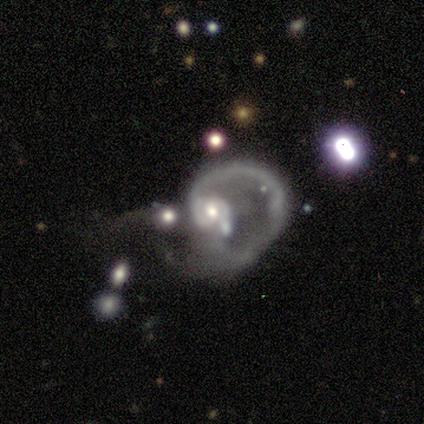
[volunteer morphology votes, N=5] Q: Smooth or featured?
A: featured or disk (100%)
Q: Edge-on disk?
A: no (100%)
Q: Bar?
A: weak (40%); tied with: no (40%)
Q: Spiral arms?
A: yes (100%)
Q: Spiral winding?
A: loose (100%)
Q: Spiral arm count?
A: 2 (40%); runner-up: 1 (20%)
Q: Bulge size?
A: moderate (40%); tied with: small (40%)
Q: Merging?
A: merger (80%); runner-up: major disturbance (20%)